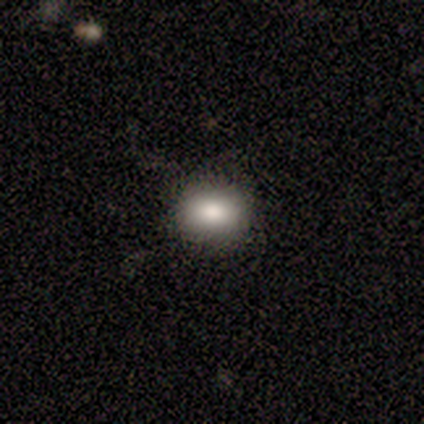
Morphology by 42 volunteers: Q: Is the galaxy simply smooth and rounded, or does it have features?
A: smooth — 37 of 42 (88%).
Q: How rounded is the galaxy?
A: in between — 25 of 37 (68%).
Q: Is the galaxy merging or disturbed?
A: none — 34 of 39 (87%).